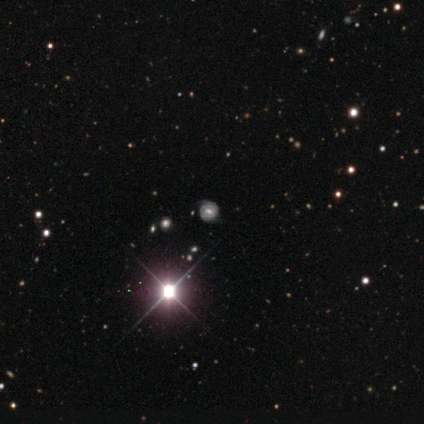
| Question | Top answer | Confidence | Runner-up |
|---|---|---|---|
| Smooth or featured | featured or disk | 60% | smooth (20%) |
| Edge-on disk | no | 100% | — |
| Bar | weak | 67% | no (33%) |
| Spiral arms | yes | 100% | — |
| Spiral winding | tight | 100% | — |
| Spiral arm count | can't tell | 67% | 3 (33%) |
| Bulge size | small | 67% | moderate (33%) |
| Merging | none | 100% | — |